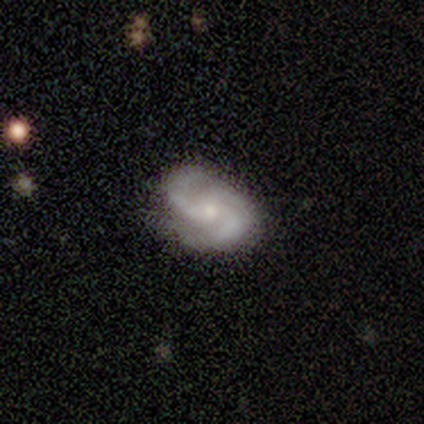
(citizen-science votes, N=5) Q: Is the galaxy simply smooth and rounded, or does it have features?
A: featured or disk — 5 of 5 (100%).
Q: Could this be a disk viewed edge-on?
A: no — 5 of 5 (100%).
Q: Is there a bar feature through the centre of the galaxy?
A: weak — 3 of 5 (60%).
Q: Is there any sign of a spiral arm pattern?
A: yes — 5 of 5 (100%).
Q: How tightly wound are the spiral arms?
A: medium — 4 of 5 (80%).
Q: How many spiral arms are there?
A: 2 — 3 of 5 (60%).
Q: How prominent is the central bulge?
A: small — 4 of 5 (80%).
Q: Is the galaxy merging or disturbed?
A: none — 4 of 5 (80%).